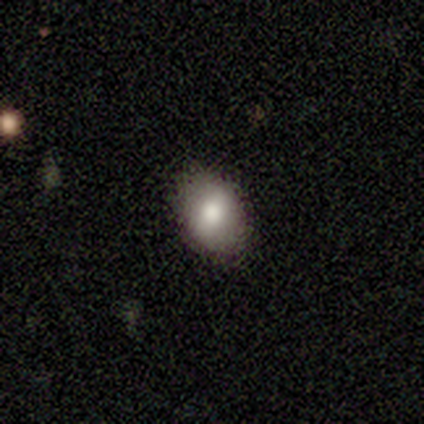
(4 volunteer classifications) Morphology: type=smooth (75%); roundness=in between (67%); merging=none (100%).